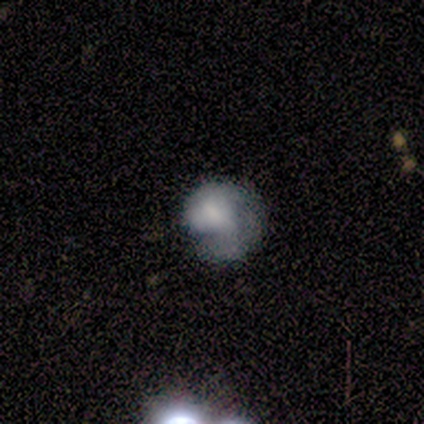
smooth-or-featured: smooth: 40% (tied) | featured or disk: 40% (tied) | star or artifact: 20%
  how-rounded: round: 100% | in between: 0% | cigar-shaped: 0%
  merging: minor disturbance: 50% | none: 25% | major disturbance: 25% | merger: 0%